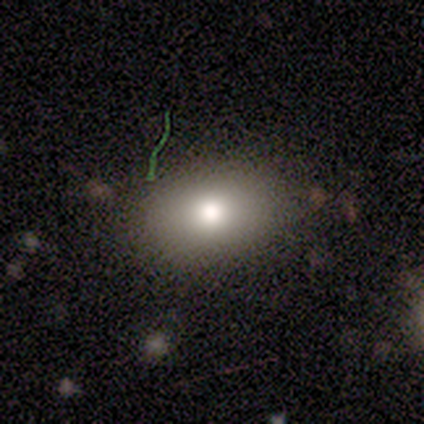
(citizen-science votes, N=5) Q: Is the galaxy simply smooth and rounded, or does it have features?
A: smooth — 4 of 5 (80%).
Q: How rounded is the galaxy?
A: in between — 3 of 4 (75%).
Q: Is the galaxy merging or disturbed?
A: none — 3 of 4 (75%).